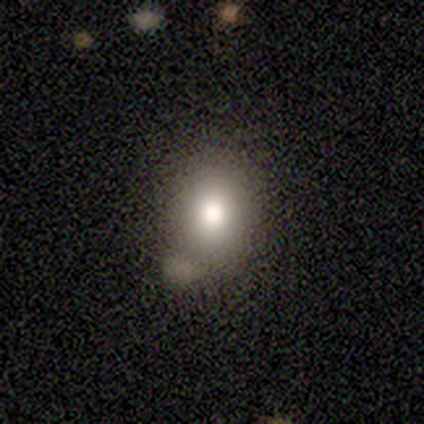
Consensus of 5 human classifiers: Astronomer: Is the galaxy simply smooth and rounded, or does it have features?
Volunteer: smooth — 40%, tied with featured or disk at 40%.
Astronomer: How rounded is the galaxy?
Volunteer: round — 100%.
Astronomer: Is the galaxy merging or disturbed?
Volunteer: minor disturbance — 50%.